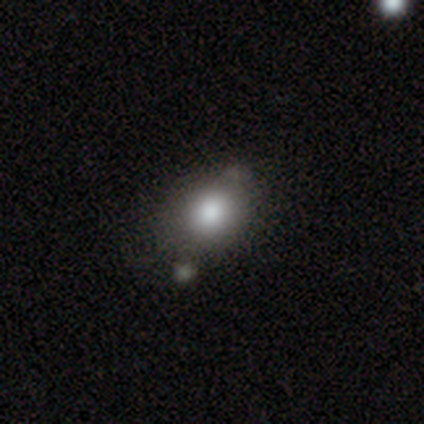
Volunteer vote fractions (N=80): A smooth galaxy with no disk features (81%) that is in between round and cigar-shaped (57%).

Vote fractions:
- Smooth or featured? smooth: 81% / featured or disk: 14% / star or artifact: 5%
- How rounded? in between: 57% / round: 43% / cigar-shaped: 0%
- Merging? none: 34% / minor disturbance: 17% / merger: 12% / major disturbance: 1%